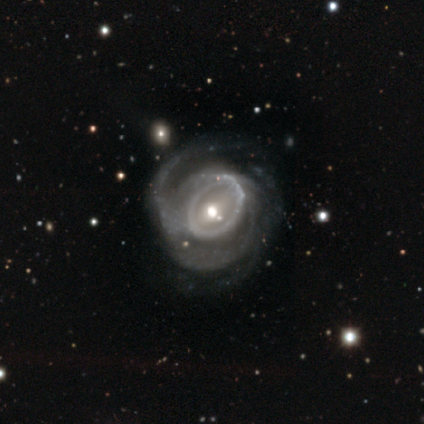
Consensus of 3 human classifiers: smooth_or_featured: featured or disk (p=0.67) [alt: star or artifact p=0.33]
disk_edge_on: no (p=1.00)
bar: weak (p=0.50) [tied with: no p=0.50]
has_spiral_arms: yes (p=1.00)
spiral_winding: tight (p=1.00)
spiral_arm_count: 2 (p=0.50) [tied with: 3 p=0.50]
bulge_size: small (p=1.00)
merging: none (p=0.50) [tied with: major disturbance p=0.50]